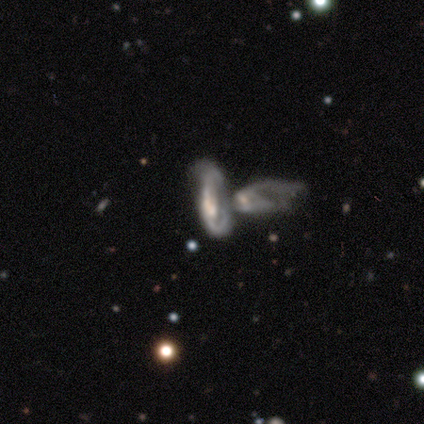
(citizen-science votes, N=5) Q: Smooth or featured?
A: featured or disk (80%); runner-up: smooth (20%)
Q: Edge-on disk?
A: yes (50%); tied with: no (50%)
Q: Edge-on bulge?
A: boxy (50%); tied with: rounded (50%)
Q: Merging?
A: merger (60%); runner-up: minor disturbance (20%)